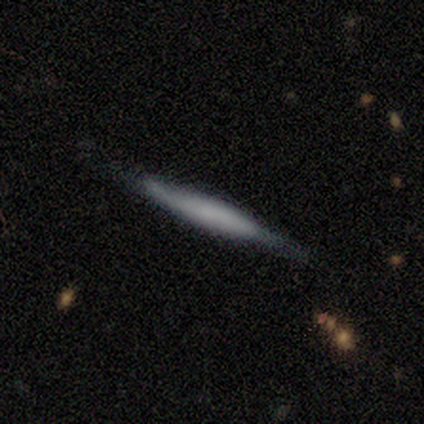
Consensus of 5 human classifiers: A smooth galaxy with no disk features (60%) that is cigar-shaped (100%). Merging: none (100%).